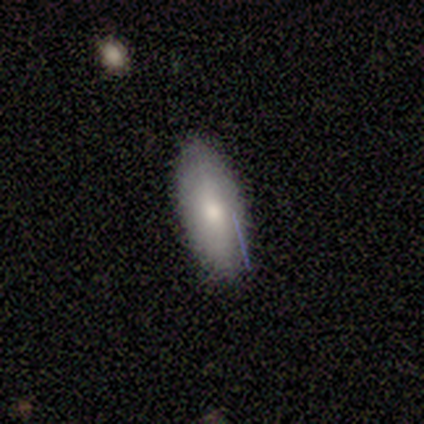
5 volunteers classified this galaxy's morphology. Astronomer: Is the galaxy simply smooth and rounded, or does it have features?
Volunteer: smooth — 80%.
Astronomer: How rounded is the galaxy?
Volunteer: in between — 100%.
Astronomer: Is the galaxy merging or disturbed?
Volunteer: none — 80%.